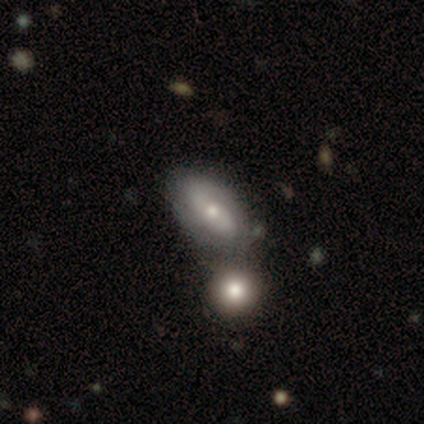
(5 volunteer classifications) Smooth or featured? 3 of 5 (60%) said featured or disk. Edge-on disk? 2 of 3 (67%) said no. Bar? 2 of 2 (100%) said no. Spiral arms? 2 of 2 (100%) said yes. Spiral winding? 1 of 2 (50%, tied with medium) said tight. Spiral arm count? 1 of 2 (50%, tied with can't tell) said 2. Bulge size? 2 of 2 (100%) said moderate. Merging? 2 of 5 (40%, tied with merger) said none.